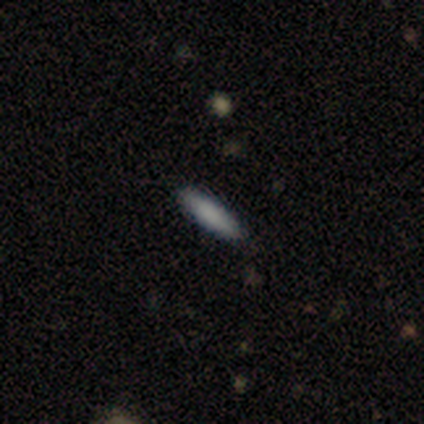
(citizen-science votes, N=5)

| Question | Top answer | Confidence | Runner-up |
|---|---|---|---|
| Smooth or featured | smooth | 100% | — |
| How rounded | cigar-shaped | 60% | in between (40%) |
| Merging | none | 100% | — |